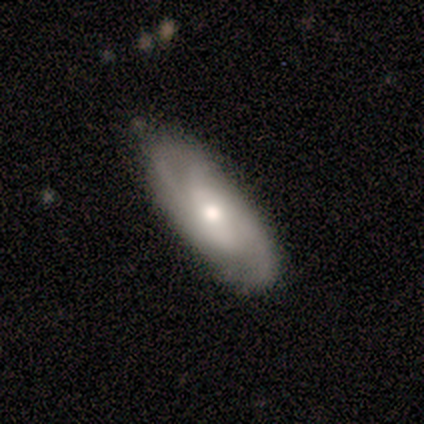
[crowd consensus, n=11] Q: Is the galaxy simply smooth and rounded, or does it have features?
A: featured or disk — 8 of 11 (73%).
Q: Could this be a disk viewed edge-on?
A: no — 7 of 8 (88%).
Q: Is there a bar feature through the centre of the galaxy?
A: no — 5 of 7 (71%).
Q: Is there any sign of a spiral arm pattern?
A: yes — 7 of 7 (100%).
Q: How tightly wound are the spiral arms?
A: medium — 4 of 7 (57%).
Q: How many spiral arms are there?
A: can't tell — 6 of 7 (86%).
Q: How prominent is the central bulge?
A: moderate — 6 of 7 (86%).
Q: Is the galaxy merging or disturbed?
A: none — 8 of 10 (80%).